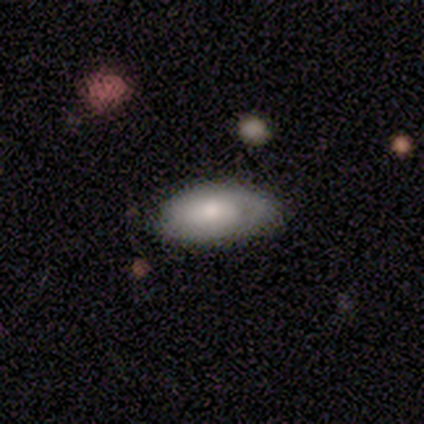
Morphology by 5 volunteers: featured or disk 80%, smooth 20%, star or artifact 0%. Down the decision tree: edge-on disk — no (75%); bar — no (67%); spiral arms — yes (67%); spiral arm count — 1 (50%, tied with can't tell); spiral winding — tight (100%); bulge size — moderate (67%); merging — none (60%).